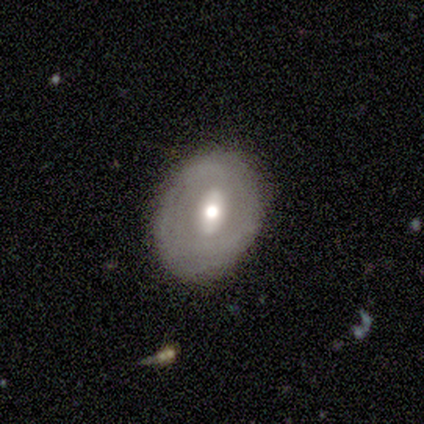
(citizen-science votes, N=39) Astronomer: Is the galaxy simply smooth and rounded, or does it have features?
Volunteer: featured or disk — 56% (runner-up: smooth, 33%).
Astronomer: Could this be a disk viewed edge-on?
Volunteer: no — 100%.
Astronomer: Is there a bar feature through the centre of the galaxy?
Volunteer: strong — 41% (runner-up: weak, 32%).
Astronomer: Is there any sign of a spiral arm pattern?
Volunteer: no — 55% (runner-up: yes, 45%).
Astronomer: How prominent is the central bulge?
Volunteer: moderate — 68%.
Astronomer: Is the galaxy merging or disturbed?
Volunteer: none — 63%.